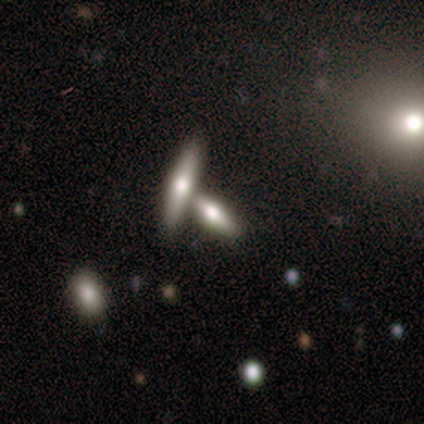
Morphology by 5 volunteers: Overall: smooth (80%). How rounded: cigar-shaped (75%). Merging: none (60%; merger 40%).